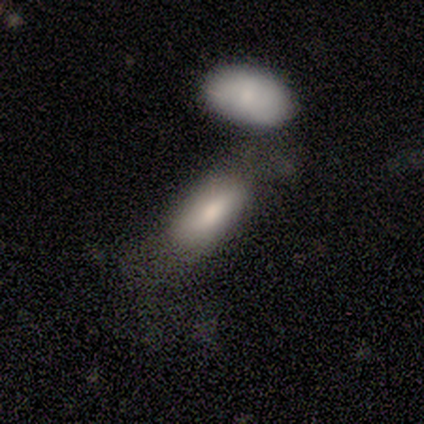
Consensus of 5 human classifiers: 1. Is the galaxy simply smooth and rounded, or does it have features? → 60% smooth, 40% featured or disk, 0% star or artifact.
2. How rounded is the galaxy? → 33% round (tied), 33% in between (tied), 33% cigar-shaped (tied).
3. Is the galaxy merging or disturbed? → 40% none (tied), 40% minor disturbance (tied), 20% merger, 0% major disturbance.